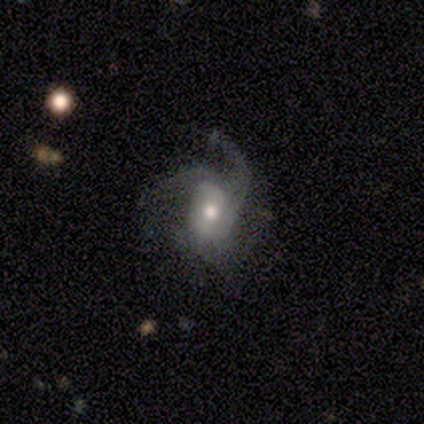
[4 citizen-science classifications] Smooth or featured? featured or disk (75%)
Edge-on disk? no (100%)
Bar? weak (100%)
Spiral arms? yes (100%)
Spiral winding? medium (100%)
Spiral arm count? 1 (33%, tied with 2 and 4)
Bulge size? moderate (67%)
Merging? minor disturbance (67%)